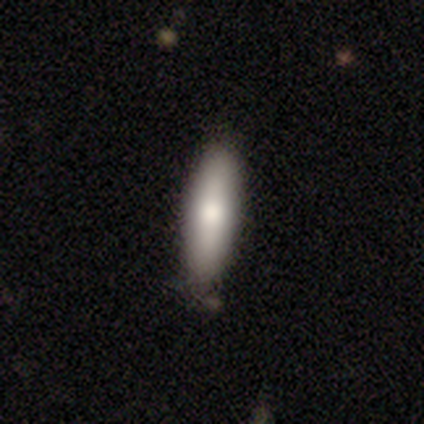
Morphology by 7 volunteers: Smooth or featured?
  - smooth: 57% *
  - featured or disk: 43%
  - star or artifact: 0%
How rounded?
  - in between: 50% * (tied)
  - cigar-shaped: 50% * (tied)
  - round: 0%
Merging?
  - none: 71% *
  - minor disturbance: 29%
  - major disturbance: 0%
  - merger: 0%